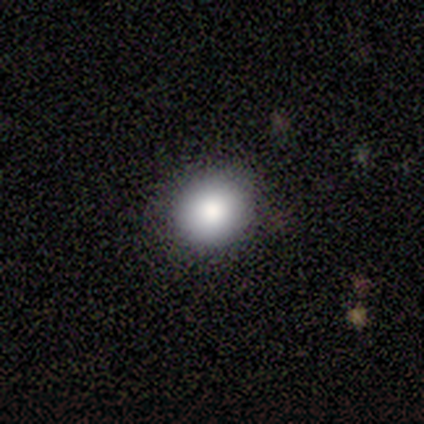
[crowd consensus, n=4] smooth 100%, featured or disk 0%, star or artifact 0%. Down the decision tree: how rounded — round (100%); merging — none (75%).